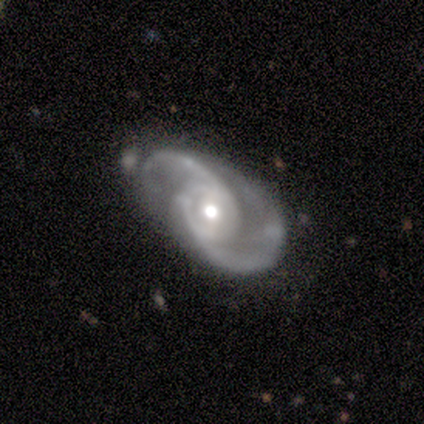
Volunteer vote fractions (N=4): A featured or disk galaxy (75%) with no bar (100%), 2 (100%) medium (67%) spiral arms (100%) and a moderate central bulge (67%).

Vote fractions:
- Smooth or featured? featured or disk: 75% / smooth: 25% / star or artifact: 0%
- Edge-on disk? no: 100% / yes: 0%
- Bar? no: 100% / strong: 0% / weak: 0%
- Spiral arms? yes: 100% / no: 0%
- Spiral winding? medium: 67% / loose: 33% / tight: 0%
- Spiral arm count? 2: 100% / 1: 0% / 3: 0% / 4: 0% / more than 4: 0% / can't tell: 0%
- Bulge size? moderate: 67% / small: 33% / dominant: 0% / large: 0% / none: 0%
- Merging? none: 25% (tied) / minor disturbance: 25% (tied) / major disturbance: 25% (tied) / merger: 25% (tied)